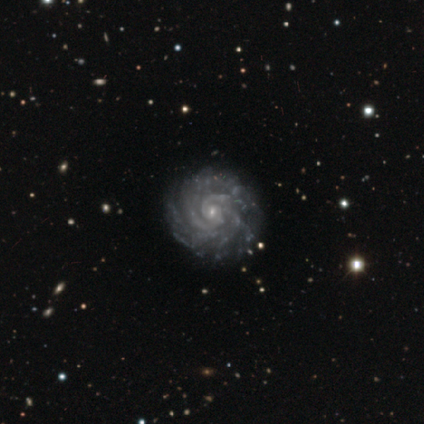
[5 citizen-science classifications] Smooth or featured? featured or disk (100%)
Edge-on disk? no (100%)
Bar? no (100%)
Spiral arms? yes (100%)
Spiral winding? tight (100%)
Spiral arm count? more than 4 (40%)
Bulge size? small (100%)
Merging? none (100%)